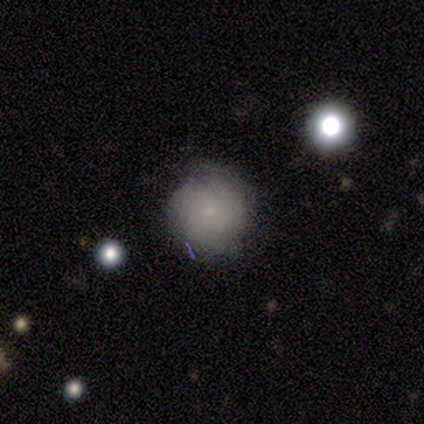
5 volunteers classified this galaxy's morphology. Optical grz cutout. It shows a featured or disk galaxy (60%) with no bar (100%), 2 (100%) medium (100%) spiral arms (67%) and a small central bulge (67%). Merging: none (100%).